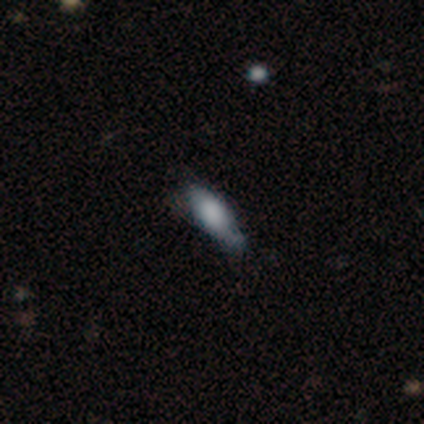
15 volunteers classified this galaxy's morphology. smooth_or_featured: smooth (p=0.80) [alt: featured or disk p=0.13]
how_rounded: in between (p=0.75) [alt: cigar-shaped p=0.25]
merging: none (p=0.50) [tied with: minor disturbance p=0.50]